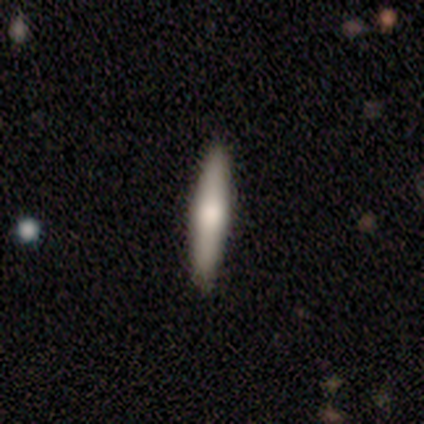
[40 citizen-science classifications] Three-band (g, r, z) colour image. It shows a smooth galaxy with no disk features (48%, tied with featured or disk) that is cigar-shaped (100%). Merging: none (87%).